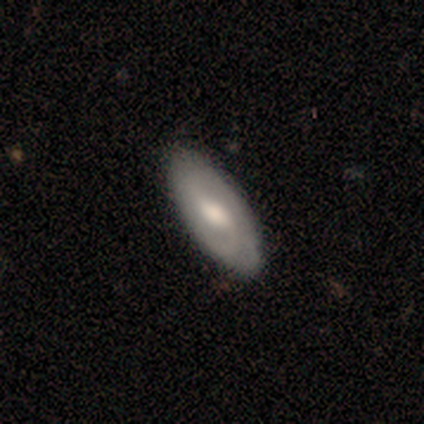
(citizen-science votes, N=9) smooth 67%, featured or disk 33%, star or artifact 0%. Down the decision tree: how rounded — in between (100%); merging — none (100%).